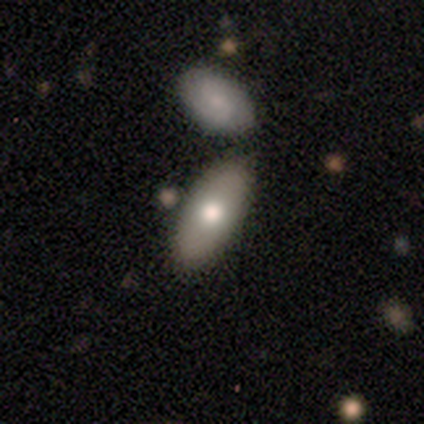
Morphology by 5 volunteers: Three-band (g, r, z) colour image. It shows a smooth galaxy with no disk features (100%) that is in between round and cigar-shaped (80%). Merging: none (100%).